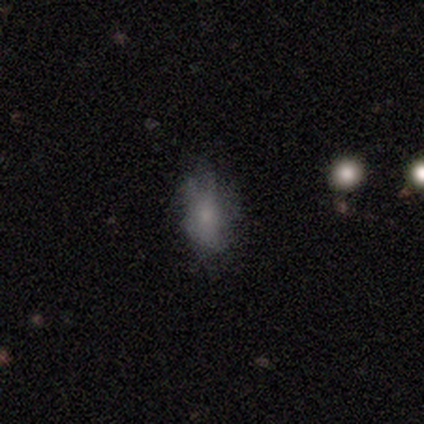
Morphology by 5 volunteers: Smooth or featured?
  - smooth: 60% *
  - featured or disk: 20%
  - star or artifact: 20%
How rounded?
  - in between: 100% *
  - round: 0%
  - cigar-shaped: 0%
Merging?
  - none: 50% *
  - minor disturbance: 25%
  - major disturbance: 25%
  - merger: 0%